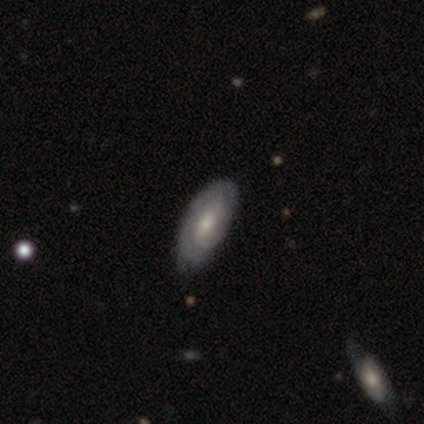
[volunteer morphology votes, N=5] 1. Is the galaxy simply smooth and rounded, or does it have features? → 80% featured or disk, 20% smooth, 0% star or artifact.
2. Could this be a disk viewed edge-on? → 75% no, 25% yes.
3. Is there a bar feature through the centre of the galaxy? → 67% no, 33% weak, 0% strong.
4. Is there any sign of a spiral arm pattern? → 67% yes, 33% no.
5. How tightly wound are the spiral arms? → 100% tight, 0% medium, 0% loose.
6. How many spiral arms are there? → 50% 2 (tied), 50% can't tell (tied), 0% 1, 0% 3, 0% 4, 0% more than 4.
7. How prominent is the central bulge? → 67% small, 33% moderate, 0% dominant, 0% large, 0% none.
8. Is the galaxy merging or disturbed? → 40% none (tied), 40% minor disturbance (tied), 20% major disturbance, 0% merger.